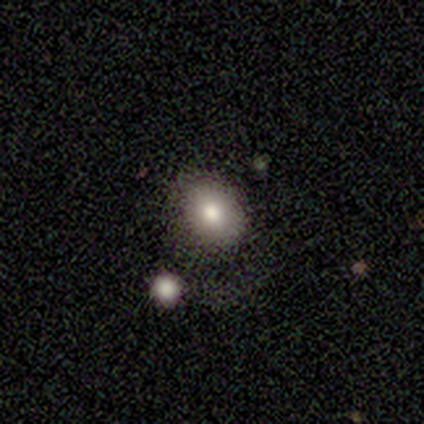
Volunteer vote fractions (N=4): Volunteers were most divided on "how rounded": round: 67%, in between: 33%, cigar-shaped: 0%. More confident: smooth or featured — smooth (75%); merging — none (75%).